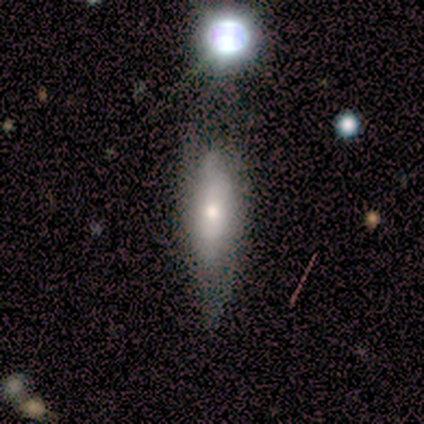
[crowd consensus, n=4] This appears to be a smooth galaxy with no disk features (75%) that is cigar-shaped (67%). Merging: none (50%, tied with minor disturbance).